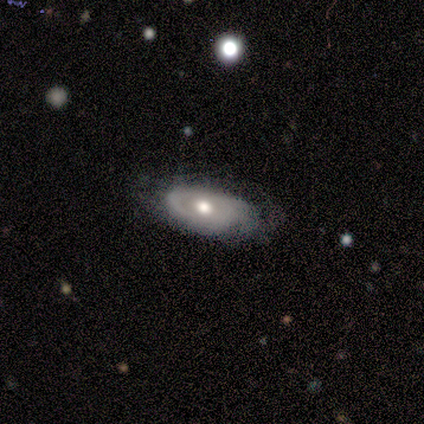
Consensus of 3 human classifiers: Morphology: type=featured or disk (67%); edge-on=yes (50%, tied with no); edge-on bulge=rounded (100%); merging=none (67%).